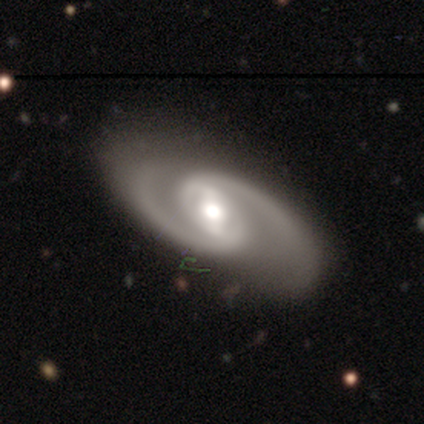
This is clearly a featured or disk galaxy (100%). It is clearly not viewed edge-on (100%). Bar: likely weak (60%). Spiral arm pattern: clearly yes (100%). Spiral arm count: clearly 2 (100%). Spiral winding: likely medium (60%). Central bulge: likely large (60%). Merging: clearly none (80%).